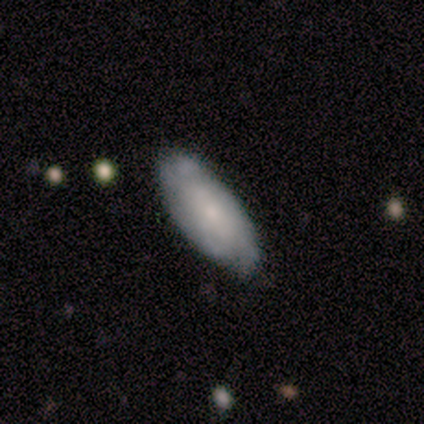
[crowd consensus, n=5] This is likely a smooth galaxy (60%). How rounded: clearly in between (100%). Merging: clearly none (80%).